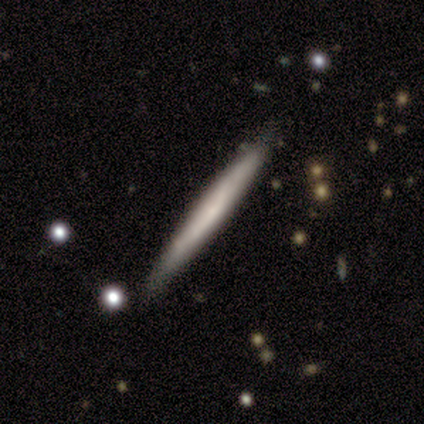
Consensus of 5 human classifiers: A smooth galaxy with no disk features (60%) that is cigar-shaped (100%).

Vote fractions:
- Smooth or featured? smooth: 60% / featured or disk: 40% / star or artifact: 0%
- How rounded? cigar-shaped: 100% / round: 0% / in between: 0%
- Merging? none: 80% / minor disturbance: 20% / major disturbance: 0% / merger: 0%